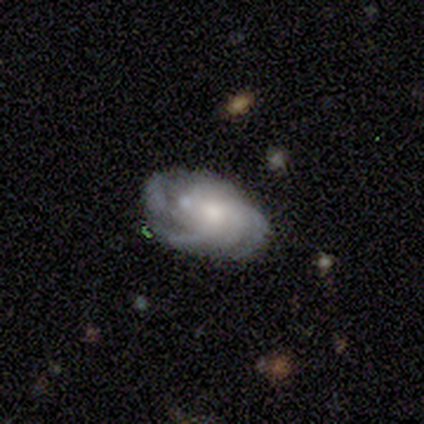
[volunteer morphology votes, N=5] This is likely a featured or disk galaxy (60%). It is clearly not viewed edge-on (100%). Bar: likely no (67%). Spiral arm pattern: clearly yes (100%). Spiral arm count: likely can't tell (67%). Spiral winding: likely medium (67%). Central bulge: likely small (67%). Merging: marginally none (40%, tied with minor disturbance).